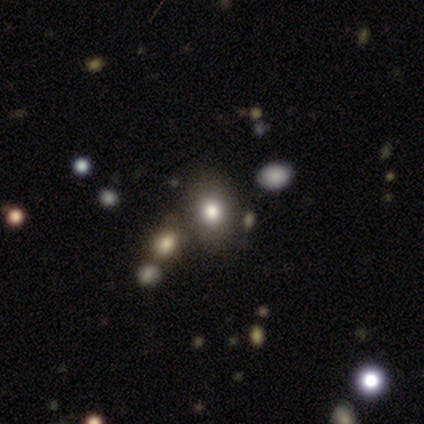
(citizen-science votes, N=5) This is clearly a smooth galaxy (100%). How rounded: likely in between (60%). Merging: clearly none (100%).